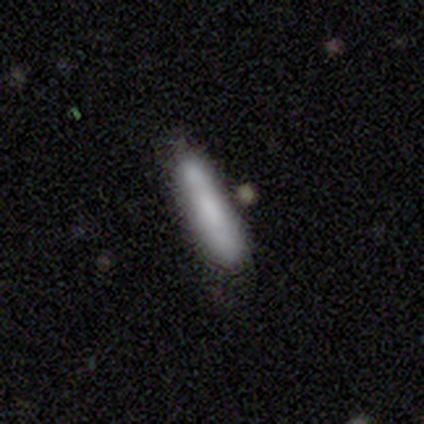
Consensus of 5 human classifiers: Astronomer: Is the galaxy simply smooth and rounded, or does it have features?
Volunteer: smooth — 80%.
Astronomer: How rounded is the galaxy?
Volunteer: cigar-shaped — 100%.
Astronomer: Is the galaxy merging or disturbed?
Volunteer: none — 80%.